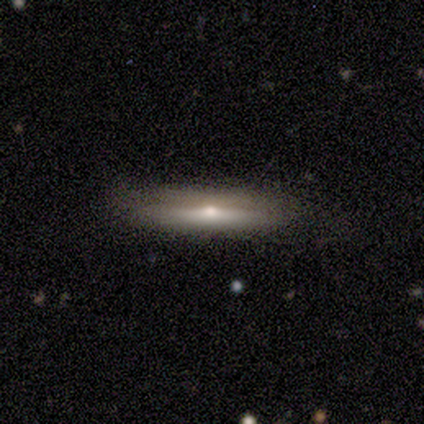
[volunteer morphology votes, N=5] Smooth or featured?
  - featured or disk: 60% *
  - smooth: 40%
  - star or artifact: 0%
Edge-on disk?
  - yes: 67% *
  - no: 33%
Edge-on bulge?
  - rounded: 100% *
  - boxy: 0%
  - none: 0%
Merging?
  - none: 80% *
  - minor disturbance: 20%
  - major disturbance: 0%
  - merger: 0%